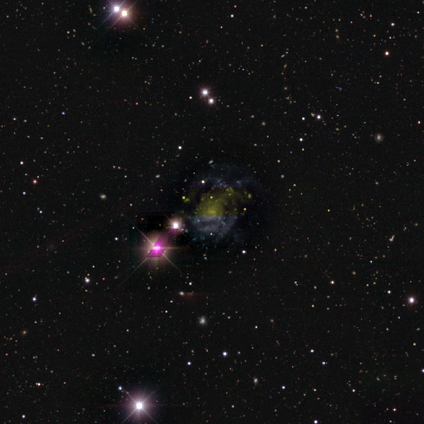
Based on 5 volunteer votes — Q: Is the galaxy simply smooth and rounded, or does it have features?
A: featured or disk — 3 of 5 (60%).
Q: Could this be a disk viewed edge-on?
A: no — 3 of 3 (100%).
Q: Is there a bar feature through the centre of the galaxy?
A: weak — 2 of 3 (67%).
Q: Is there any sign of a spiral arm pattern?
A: yes — 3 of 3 (100%).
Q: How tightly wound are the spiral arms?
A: tight — 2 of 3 (67%).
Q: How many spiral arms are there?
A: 3 — 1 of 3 (33%, tied with 4 and can't tell).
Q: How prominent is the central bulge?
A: moderate — 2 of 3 (67%).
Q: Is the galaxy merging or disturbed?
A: none — 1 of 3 (33%, tied with minor disturbance and major disturbance).